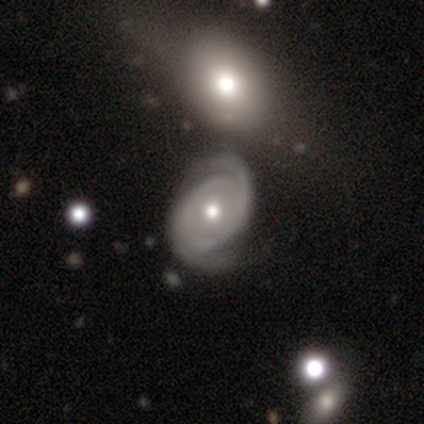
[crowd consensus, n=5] featured or disk 100%, smooth 0%, star or artifact 0%. Down the decision tree: edge-on disk — no (100%); bar — no (60%); spiral arms — yes (100%); spiral arm count — 2 (80%); spiral winding — tight (80%); bulge size — moderate (60%); merging — none (60%).